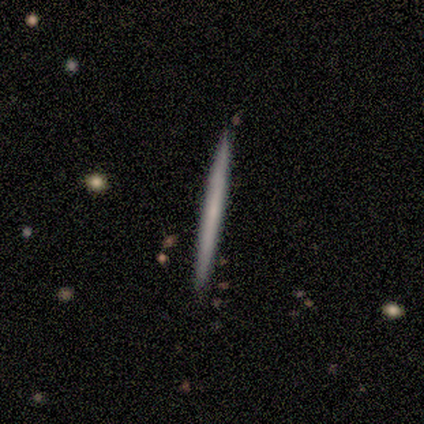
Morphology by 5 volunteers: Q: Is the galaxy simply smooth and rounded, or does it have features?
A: smooth — 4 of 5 (80%).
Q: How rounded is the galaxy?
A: cigar-shaped — 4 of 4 (100%).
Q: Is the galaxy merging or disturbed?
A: none — 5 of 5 (100%).